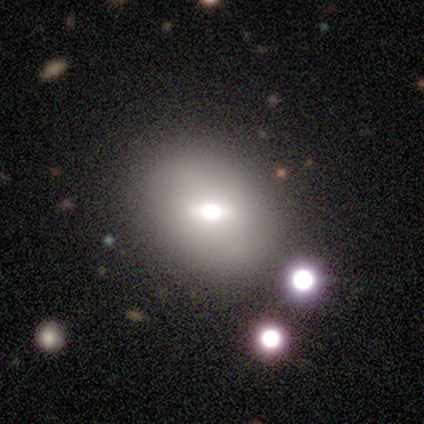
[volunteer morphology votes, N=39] Smooth or featured? 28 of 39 (72%) said smooth. How rounded? 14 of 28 (50%, tied with in between) said round. Merging? 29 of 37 (78%) said none.